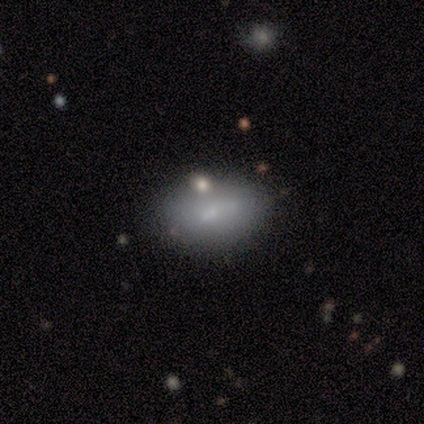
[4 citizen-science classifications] smooth 50%, featured or disk 25%, star or artifact 25%. Down the decision tree: how rounded — round (50%, tied with in between); merging — none (67%).